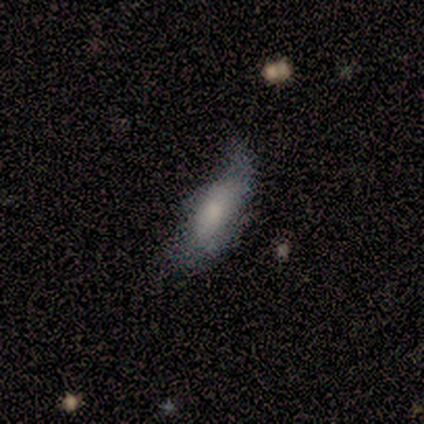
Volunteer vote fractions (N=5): Volunteers were most divided on "how rounded": in between: 75%, cigar-shaped: 25%, round: 0%. More confident: smooth or featured — smooth (80%); merging — minor disturbance (80%).